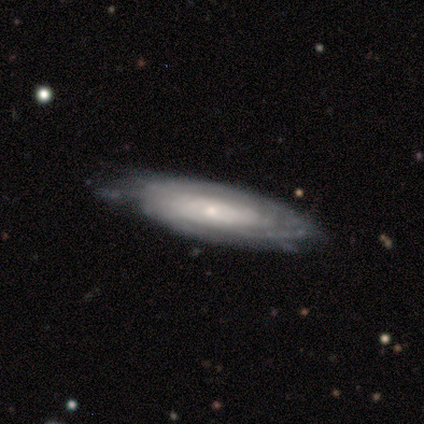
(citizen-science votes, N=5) Volunteers were most divided on "merging" (2-way tie): none: 50%, minor disturbance: 50%, major disturbance: 0%, merger: 0%. More confident: edge-on disk — no (100%); bar — no (100%); spiral arms — yes (100%); spiral winding — tight (100%); bulge size — small (100%); spiral arm count — can't tell (67%); smooth or featured — featured or disk (60%).